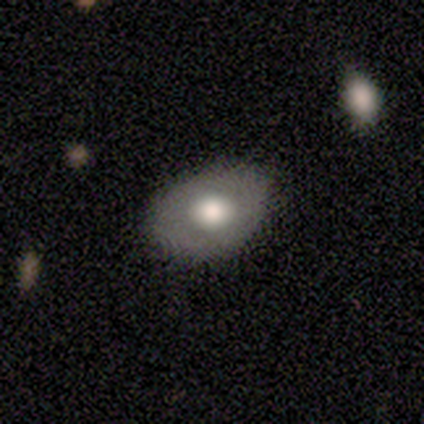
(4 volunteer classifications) Morphology: type=smooth (75%); roundness=in between (100%); merging=none (75%).